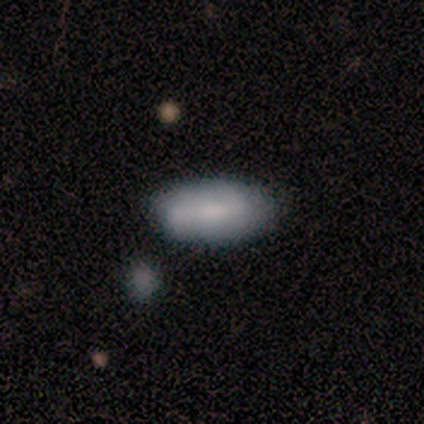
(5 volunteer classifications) This appears to be a smooth galaxy with no disk features (60%) that is in between round and cigar-shaped (100%). Merging: none (80%).